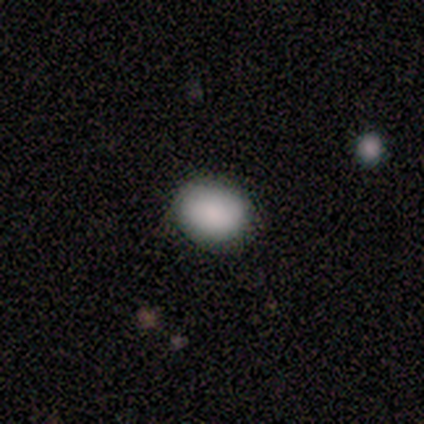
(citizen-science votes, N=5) This is clearly a smooth galaxy (80%). How rounded: likely round (75%). Merging: clearly none (100%).